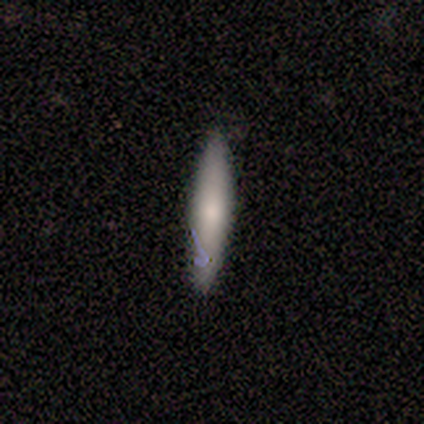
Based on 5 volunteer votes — This is marginally a smooth galaxy (40%, tied with star or artifact). How rounded: clearly cigar-shaped (100%). Merging: likely none (67%).